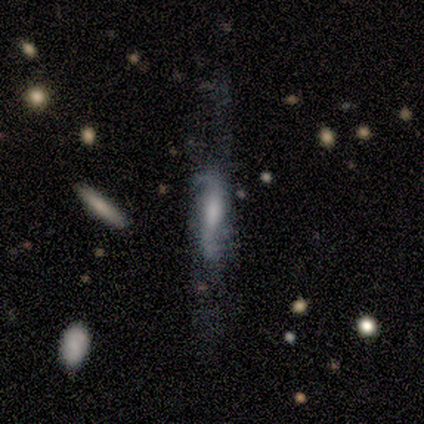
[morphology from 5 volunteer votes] Smooth or featured?
  - featured or disk: 100% *
  - smooth: 0%
  - star or artifact: 0%
Edge-on disk?
  - no: 60% *
  - yes: 40%
Bar?
  - weak: 67% *
  - strong: 33%
  - no: 0%
Spiral arms?
  - yes: 100% *
  - no: 0%
Spiral winding?
  - loose: 67% *
  - medium: 33%
  - tight: 0%
Spiral arm count?
  - 2: 100% *
  - 1: 0%
  - 3: 0%
  - 4: 0%
  - more than 4: 0%
  - can't tell: 0%
Bulge size?
  - moderate: 67% *
  - large: 33%
  - dominant: 0%
  - small: 0%
  - none: 0%
Merging?
  - none: 60% *
  - minor disturbance: 20%
  - major disturbance: 20%
  - merger: 0%